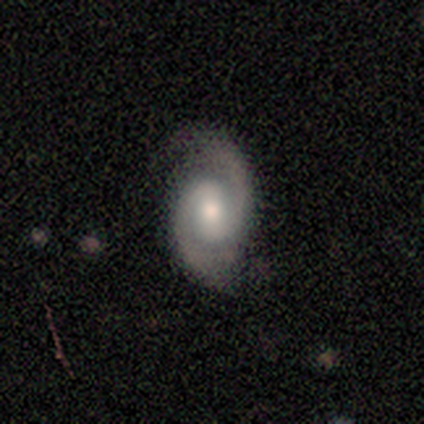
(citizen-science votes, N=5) smooth_or_featured: featured or disk (p=1.00)
disk_edge_on: no (p=1.00)
bar: no (p=0.80) [alt: weak p=0.20]
has_spiral_arms: yes (p=1.00)
spiral_winding: medium (p=0.80) [alt: tight p=0.20]
spiral_arm_count: 2 (p=1.00)
bulge_size: large (p=0.40) [tied with: small p=0.40]
merging: none (p=1.00)